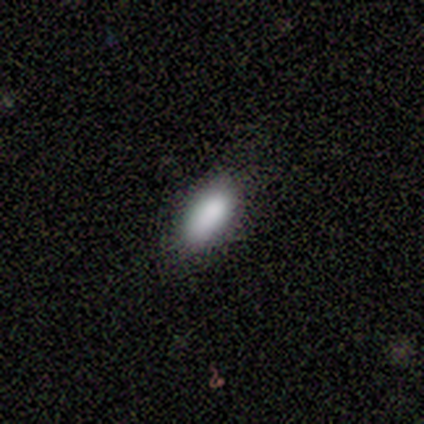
A smooth galaxy with no disk features (80%) that is in between round and cigar-shaped (100%). Merging: none (80%).